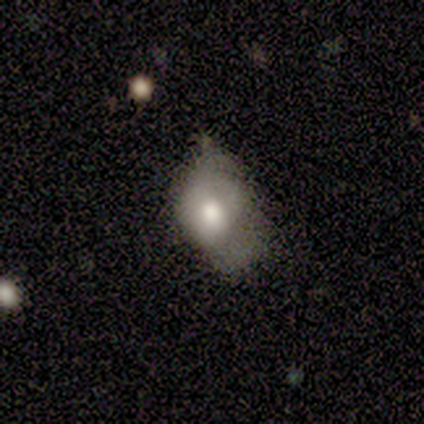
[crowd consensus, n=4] Volunteers were most divided on "smooth or featured" (2-way tie): smooth: 50%, featured or disk: 50%, star or artifact: 0%; "merging" (2-way tie): minor disturbance: 50%, major disturbance: 50%, none: 0%, merger: 0%. More confident: how rounded — in between (100%).